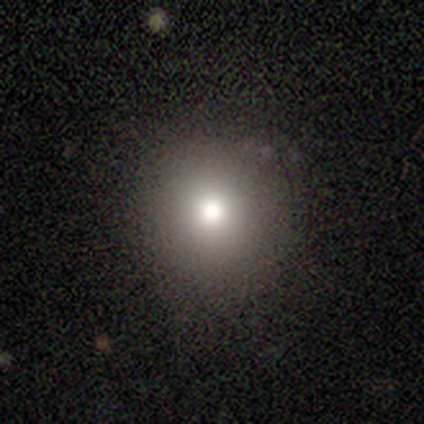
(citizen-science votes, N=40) This appears to be a smooth galaxy with no disk features (72%) that is round (90%). Merging: none (80%).